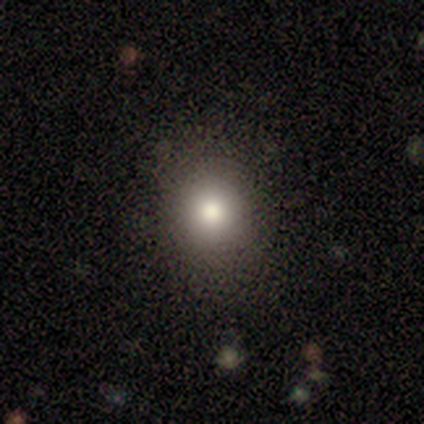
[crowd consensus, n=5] Morphology: type=smooth (100%); roundness=round (80%); merging=none (100%).